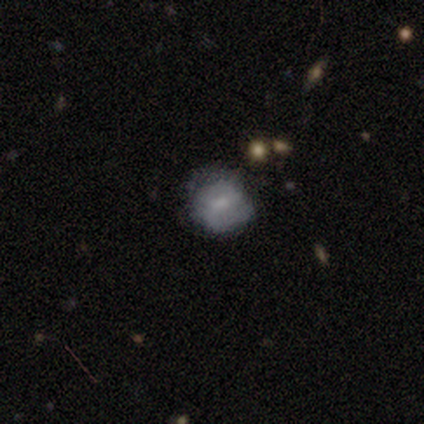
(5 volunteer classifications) Morphology: type=featured or disk (80%); edge-on=no (100%); bar=weak (50%); spiral arms=yes (75%); winding=tight (33%, tied with medium and loose); arm count=2 (67%); bulge=moderate (50%); merging=none (80%).